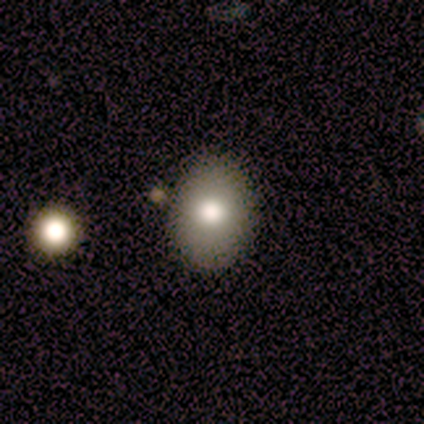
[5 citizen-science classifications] Smooth or featured: smooth — 60% (featured or disk — 20%)
How rounded: in between — 67% (round — 33%)
Merging: none — 50% (minor disturbance — 25%)